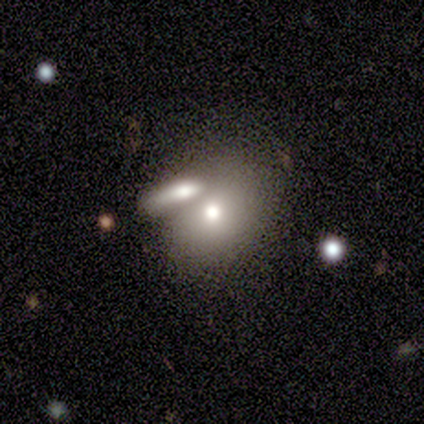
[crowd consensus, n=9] smooth-or-featured: smooth: 100% | featured or disk: 0% | star or artifact: 0%
  how-rounded: in between: 67% | round: 33% | cigar-shaped: 0%
  merging: merger: 56% | none: 33% | minor disturbance: 11% | major disturbance: 0%